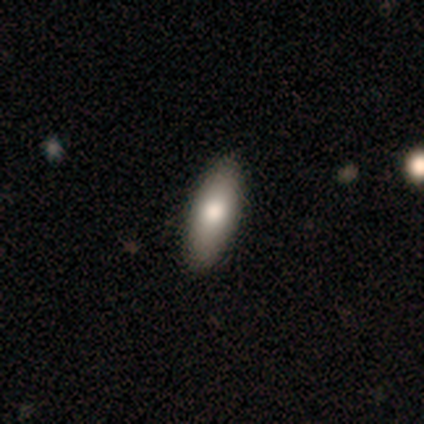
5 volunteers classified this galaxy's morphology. Smooth or featured?
  - smooth: 60% *
  - featured or disk: 20%
  - star or artifact: 20%
How rounded?
  - in between: 67% *
  - cigar-shaped: 33%
  - round: 0%
Merging?
  - none: 100% *
  - minor disturbance: 0%
  - major disturbance: 0%
  - merger: 0%